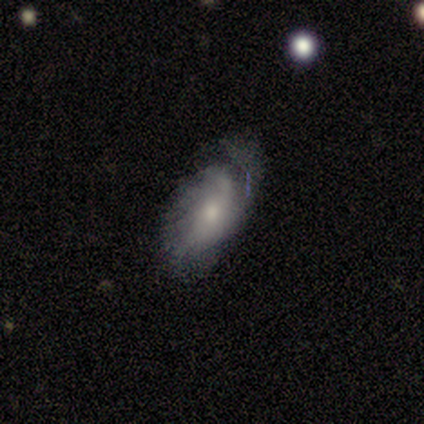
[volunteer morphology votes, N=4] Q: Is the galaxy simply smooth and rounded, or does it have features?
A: featured or disk — 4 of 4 (100%).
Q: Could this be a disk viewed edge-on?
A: no — 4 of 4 (100%).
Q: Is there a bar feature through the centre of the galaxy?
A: no — 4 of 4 (100%).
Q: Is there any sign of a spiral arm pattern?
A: yes — 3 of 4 (75%).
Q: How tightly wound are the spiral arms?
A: medium — 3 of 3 (100%).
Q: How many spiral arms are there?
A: can't tell — 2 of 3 (67%).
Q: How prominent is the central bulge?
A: moderate — 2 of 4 (50%, tied with small).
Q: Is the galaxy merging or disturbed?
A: none — 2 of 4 (50%, tied with minor disturbance).